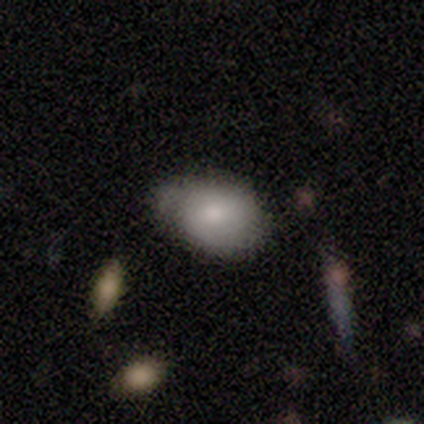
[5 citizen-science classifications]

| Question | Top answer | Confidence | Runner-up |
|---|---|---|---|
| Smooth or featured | smooth | 80% | star or artifact (20%) |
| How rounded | in between | 100% | — |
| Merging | none | 50% | tied: minor disturbance (50%) |